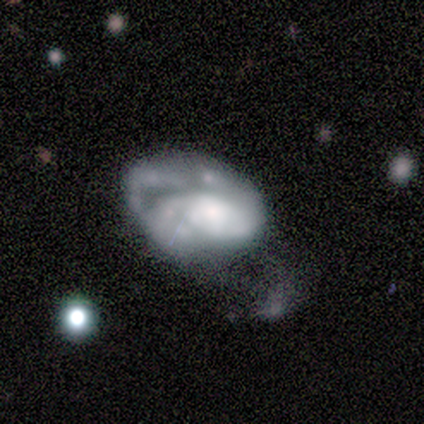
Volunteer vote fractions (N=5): Morphology: type=featured or disk (80%); edge-on=no (100%); bar=no (75%); spiral arms=yes (50%, tied with no); winding=tight (100%); arm count=2 (50%, tied with 4); bulge=moderate (75%); merging=major disturbance (80%).